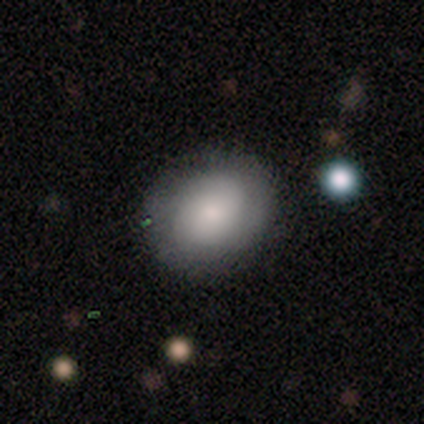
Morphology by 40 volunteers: A smooth galaxy with no disk features (70%) that is round (79%).

Vote fractions:
- Smooth or featured? smooth: 70% / featured or disk: 22% / star or artifact: 8%
- How rounded? round: 79% / in between: 21% / cigar-shaped: 0%
- Merging? none: 81% / minor disturbance: 11% / major disturbance: 8% / merger: 0%